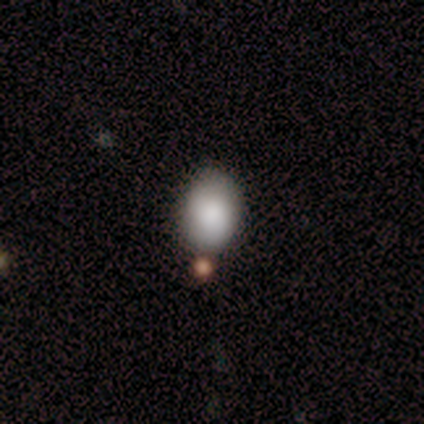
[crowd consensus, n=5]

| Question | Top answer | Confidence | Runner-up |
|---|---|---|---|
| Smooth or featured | smooth | 80% | featured or disk (20%) |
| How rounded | in between | 100% | — |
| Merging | none | 100% | — |